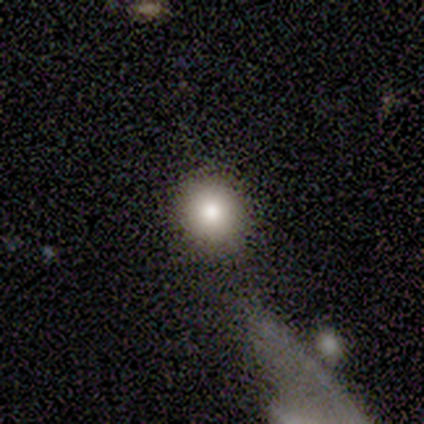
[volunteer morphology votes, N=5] Volunteers were most divided on "smooth or featured": smooth: 80%, star or artifact: 20%, featured or disk: 0%. More confident: how rounded — round (100%); merging — none (100%).